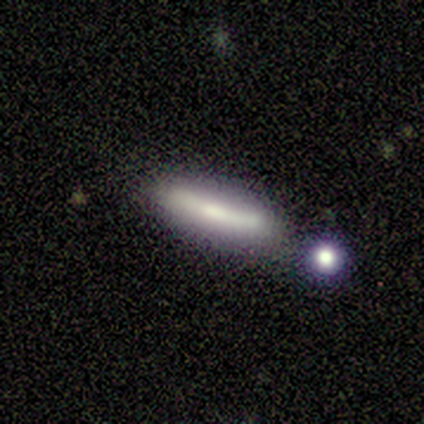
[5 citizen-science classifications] A smooth galaxy with no disk features (80%) that is cigar-shaped (100%). Merging: none (50%).